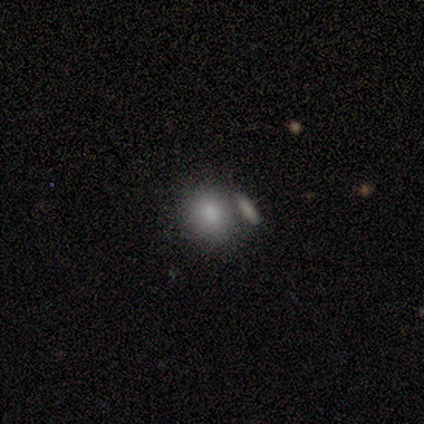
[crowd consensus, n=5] Smooth or featured: smooth — 80% (featured or disk — 20%)
How rounded: round — 75% (in between — 25%)
Merging: none — 60% (merger — 40%)